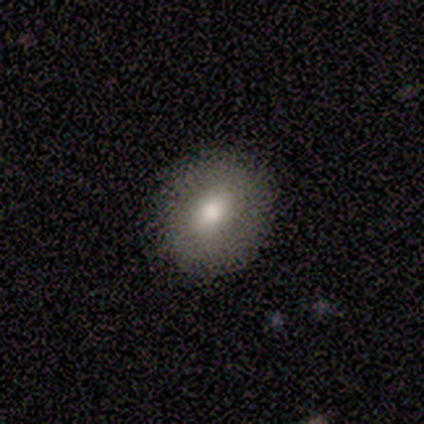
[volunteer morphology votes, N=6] Smooth or featured? 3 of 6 (50%) said smooth. How rounded? 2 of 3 (67%) said round. Merging? 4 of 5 (80%) said none.